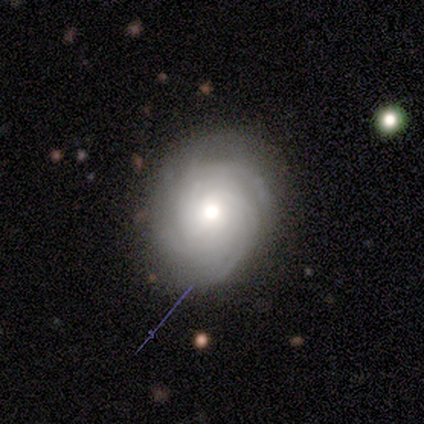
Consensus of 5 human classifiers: featured or disk 100%, smooth 0%, star or artifact 0%. Down the decision tree: edge-on disk — no (100%); bar — no (60%); spiral arms — yes (100%); spiral arm count — 3 (40%, tied with can't tell); spiral winding — tight (80%); bulge size — moderate (60%); merging — none (100%).